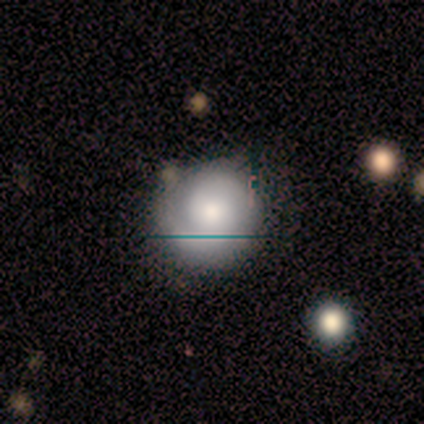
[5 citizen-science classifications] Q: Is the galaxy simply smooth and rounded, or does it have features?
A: featured or disk — 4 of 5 (80%).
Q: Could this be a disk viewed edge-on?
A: no — 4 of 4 (100%).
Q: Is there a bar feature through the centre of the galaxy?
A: no — 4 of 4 (100%).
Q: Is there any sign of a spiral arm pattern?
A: yes — 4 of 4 (100%).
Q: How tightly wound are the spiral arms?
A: tight — 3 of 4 (75%).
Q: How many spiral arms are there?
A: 2 — 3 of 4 (75%).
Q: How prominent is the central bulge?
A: moderate — 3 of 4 (75%).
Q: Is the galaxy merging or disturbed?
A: none — 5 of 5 (100%).